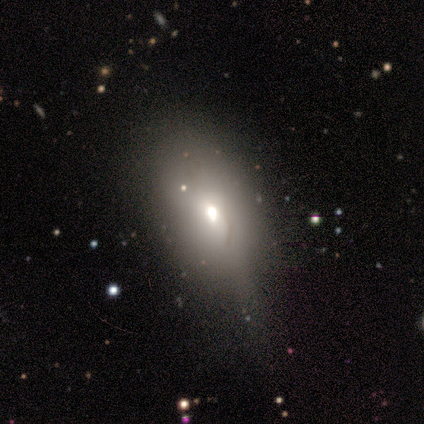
Smooth or featured?
  - smooth: 71% *
  - featured or disk: 18%
  - star or artifact: 11%
How rounded?
  - in between: 93% *
  - round: 7%
  - cigar-shaped: 0%
Merging?
  - minor disturbance: 59% *
  - none: 26%
  - major disturbance: 12%
  - merger: 3%